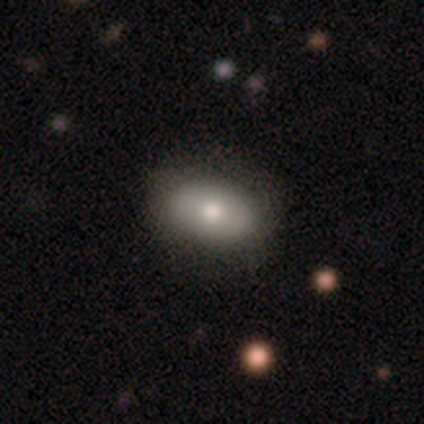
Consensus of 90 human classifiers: Q: Smooth or featured?
A: smooth (72%); runner-up: featured or disk (21%)
Q: How rounded?
A: in between (91%); runner-up: round (6%)
Q: Merging?
A: none (77%); runner-up: minor disturbance (18%)